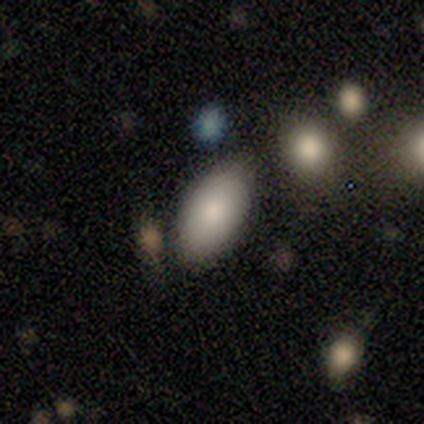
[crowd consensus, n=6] smooth 83%, featured or disk 17%, star or artifact 0%. Down the decision tree: how rounded — in between (100%); merging — none (100%).